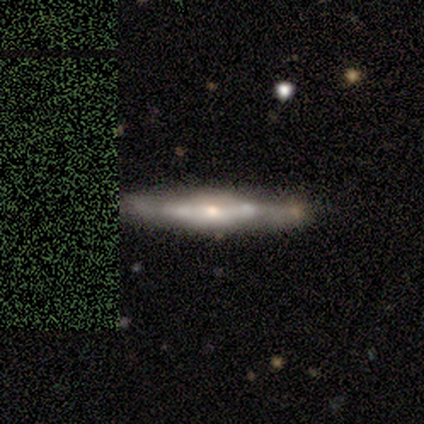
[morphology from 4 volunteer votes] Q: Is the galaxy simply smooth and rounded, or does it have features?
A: featured or disk — 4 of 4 (100%).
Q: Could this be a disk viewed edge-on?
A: yes — 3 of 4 (75%).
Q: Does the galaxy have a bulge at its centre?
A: rounded — 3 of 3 (100%).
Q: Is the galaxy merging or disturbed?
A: none — 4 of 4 (100%).